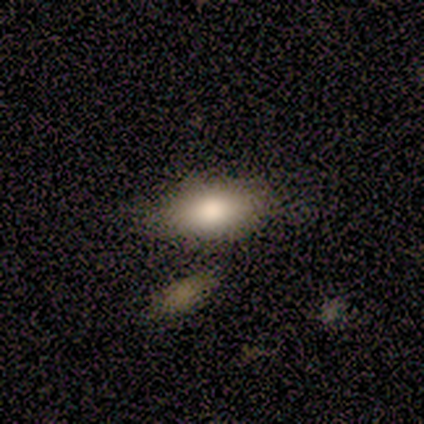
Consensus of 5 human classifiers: This is clearly a smooth galaxy (80%). How rounded: clearly in between (100%). Merging: clearly none (80%).